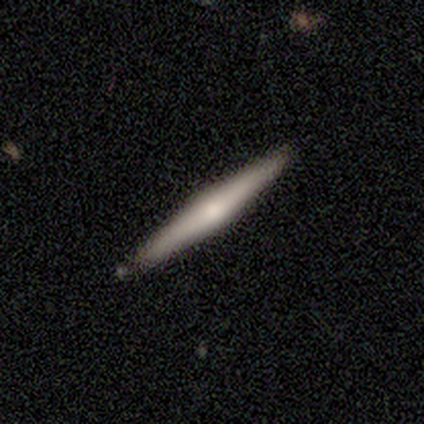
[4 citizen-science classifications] A featured or disk galaxy (75%) viewed edge-on (100%) with a rounded central bulge (100%). Merging: none (100%).